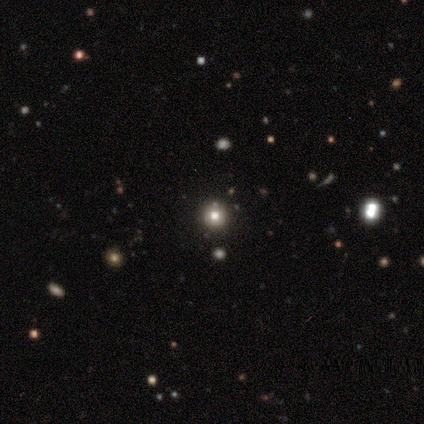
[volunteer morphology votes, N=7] smooth_or_featured: smooth (p=0.57) [alt: star or artifact p=0.29]
how_rounded: round (p=1.00)
merging: none (p=0.80) [alt: merger p=0.20]